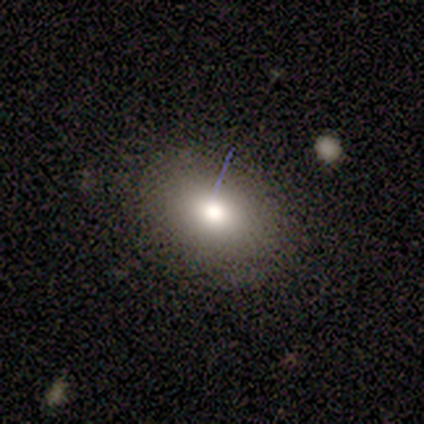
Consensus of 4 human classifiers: smooth-or-featured: smooth: 75% | featured or disk: 25% | star or artifact: 0%
  how-rounded: in between: 67% | round: 33% | cigar-shaped: 0%
  merging: none: 75% | minor disturbance: 25% | major disturbance: 0% | merger: 0%